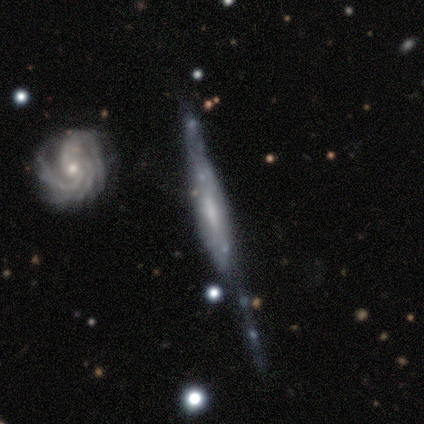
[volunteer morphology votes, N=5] type=featured or disk (100%); edge-on=yes (60%); edge-on bulge=none (67%); merging=minor disturbance (40%).